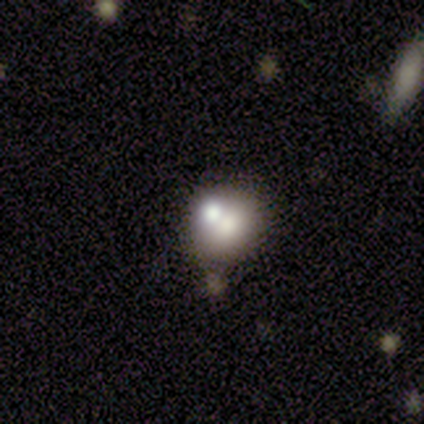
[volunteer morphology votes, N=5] Smooth or featured? smooth (60%)
How rounded? round (100%)
Merging? none (60%)